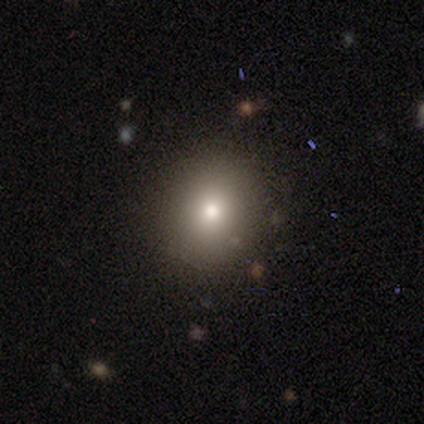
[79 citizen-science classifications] Volunteers were most divided on "how rounded": round: 71%, in between: 29%, cigar-shaped: 0%. More confident: smooth or featured — smooth (80%); merging — none (51%).